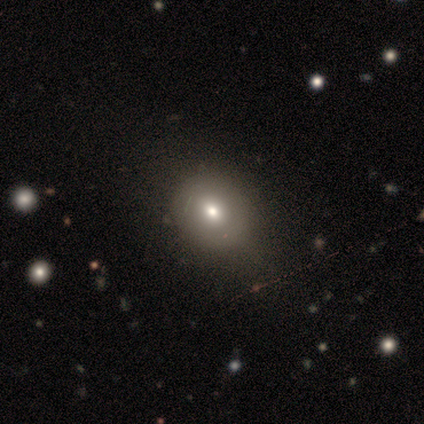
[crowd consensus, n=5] smooth_or_featured: smooth (p=0.80) [alt: featured or disk p=0.20]
how_rounded: round (p=0.50) [tied with: in between p=0.50]
merging: none (p=0.60) [alt: minor disturbance p=0.40]